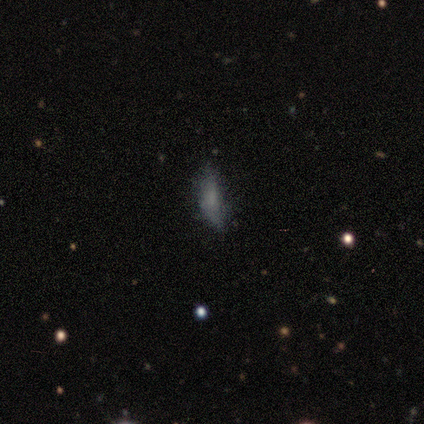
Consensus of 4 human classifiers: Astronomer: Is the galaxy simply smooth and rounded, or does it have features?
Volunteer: smooth — 75%.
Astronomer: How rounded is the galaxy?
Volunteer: cigar-shaped — 67%.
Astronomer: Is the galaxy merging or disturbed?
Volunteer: minor disturbance — 75%.